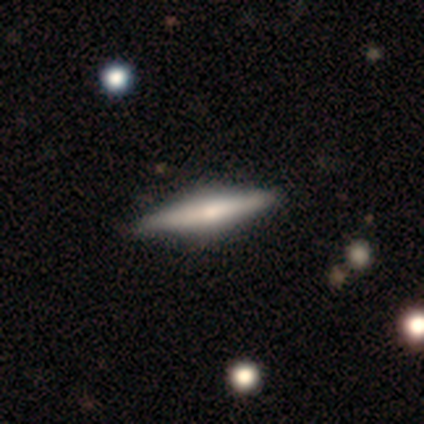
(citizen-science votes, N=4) smooth_or_featured: featured or disk (p=0.75) [alt: smooth p=0.25]
disk_edge_on: yes (p=1.00)
edge_on_bulge: rounded (p=1.00)
merging: none (p=0.75) [alt: minor disturbance p=0.25]